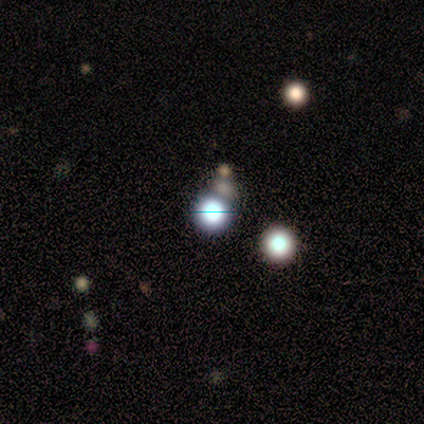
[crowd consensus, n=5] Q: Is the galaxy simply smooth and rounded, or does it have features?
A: smooth — 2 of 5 (40%, tied with star or artifact).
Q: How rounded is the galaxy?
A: round — 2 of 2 (100%).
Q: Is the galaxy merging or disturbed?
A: none — 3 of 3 (100%).